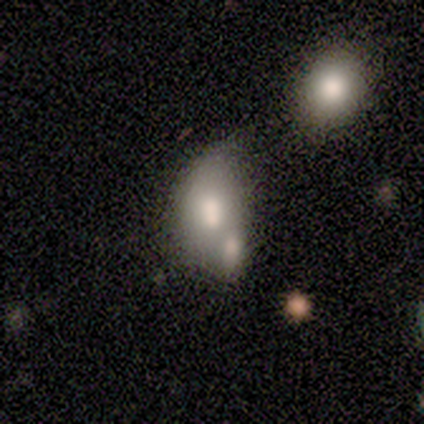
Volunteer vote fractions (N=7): This is possibly a smooth galaxy (57%). How rounded: clearly in between (100%). Merging: clearly merger (100%).